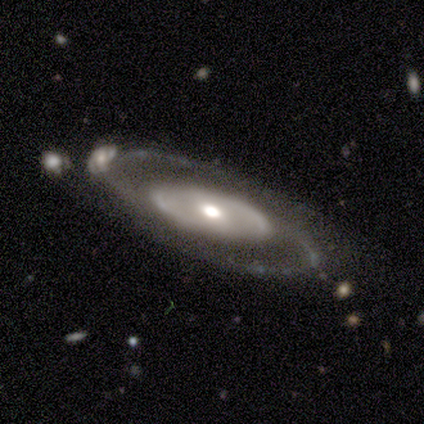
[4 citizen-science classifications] A featured or disk galaxy (50%) with a weak bar (50%, tied with no), 2 (100%) tight (100%) spiral arms (50%, tied with no) and a moderate central bulge (100%). Merging: none (67%).